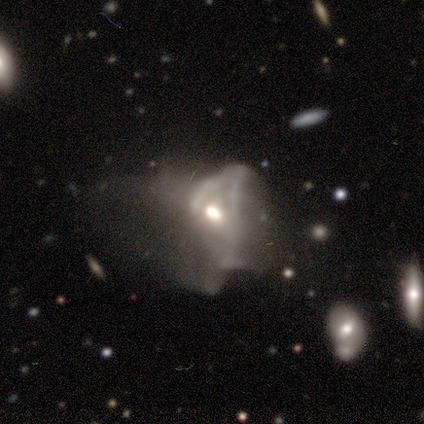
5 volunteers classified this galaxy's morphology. Smooth or featured?
  - featured or disk: 60% *
  - star or artifact: 40%
  - smooth: 0%
Edge-on disk?
  - no: 100% *
  - yes: 0%
Bar?
  - weak: 67% *
  - no: 33%
  - strong: 0%
Spiral arms?
  - yes: 67% *
  - no: 33%
Spiral winding?
  - medium: 50% * (tied)
  - loose: 50% * (tied)
  - tight: 0%
Spiral arm count?
  - 2: 50% * (tied)
  - can't tell: 50% * (tied)
  - 1: 0%
  - 3: 0%
  - 4: 0%
  - more than 4: 0%
Bulge size?
  - moderate: 67% *
  - small: 33%
  - dominant: 0%
  - large: 0%
  - none: 0%
Merging?
  - major disturbance: 67% *
  - none: 33%
  - minor disturbance: 0%
  - merger: 0%